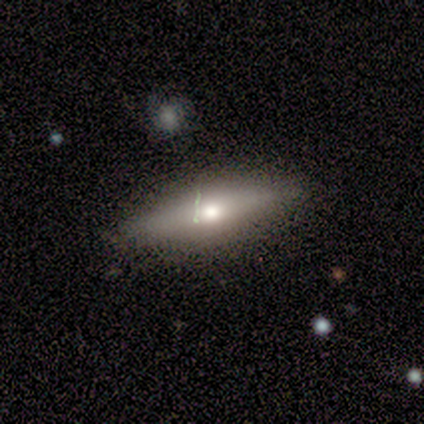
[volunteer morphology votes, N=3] Smooth or featured? 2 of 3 (67%) said smooth. How rounded? 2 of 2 (100%) said cigar-shaped. Merging? 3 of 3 (100%) said none.